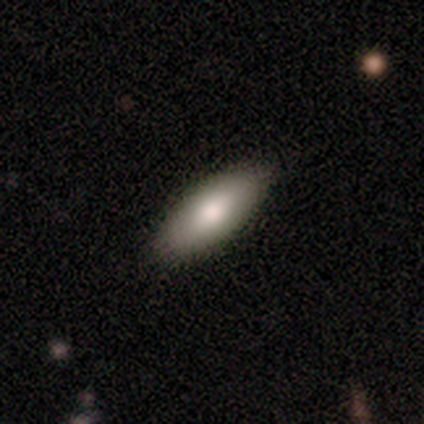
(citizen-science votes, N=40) A smooth galaxy with no disk features (82%) that is in between round and cigar-shaped (91%). Merging: none (68%).